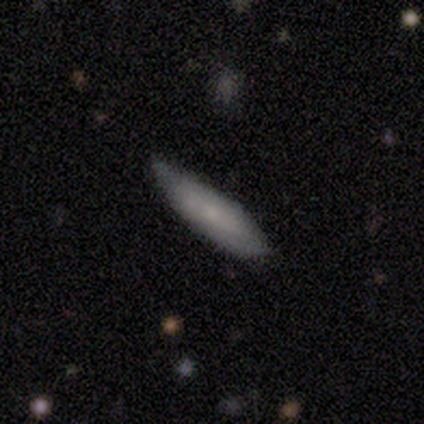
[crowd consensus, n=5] smooth-or-featured: smooth: 60% | featured or disk: 40% | star or artifact: 0%
  how-rounded: cigar-shaped: 67% | in between: 33% | round: 0%
  merging: none: 100% | minor disturbance: 0% | major disturbance: 0% | merger: 0%